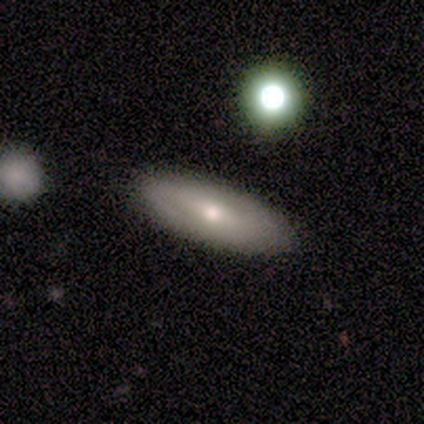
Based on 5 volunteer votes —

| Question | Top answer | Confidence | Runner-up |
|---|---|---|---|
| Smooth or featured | smooth | 80% | featured or disk (20%) |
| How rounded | in between | 100% | — |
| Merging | none | 80% | merger (20%) |